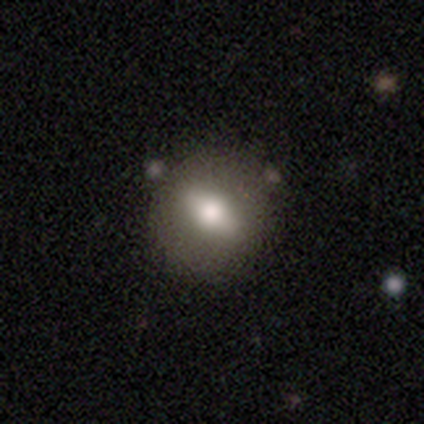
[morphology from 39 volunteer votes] type=smooth (54%); roundness=round (67%); merging=none (69%).